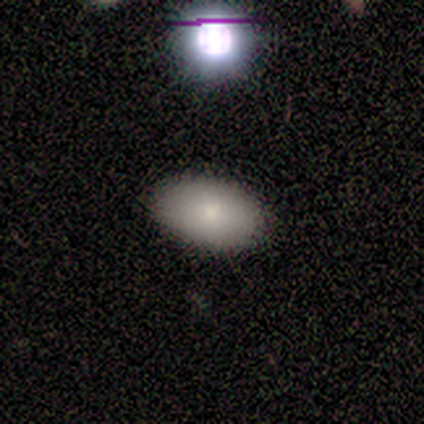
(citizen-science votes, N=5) Overall: smooth (80%). How rounded: in between (75%). Merging: none (100%).